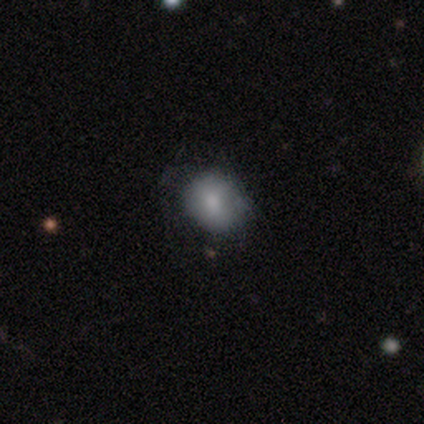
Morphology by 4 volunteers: smooth 100%, featured or disk 0%, star or artifact 0%. Down the decision tree: how rounded — round (50%, tied with in between); merging — none (100%).